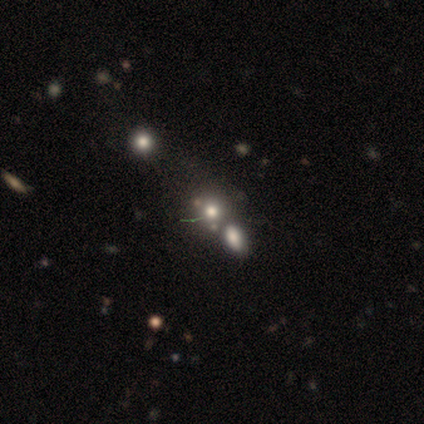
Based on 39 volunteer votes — Morphology: type=smooth (46%); roundness=round (56%); merging=none (46%).